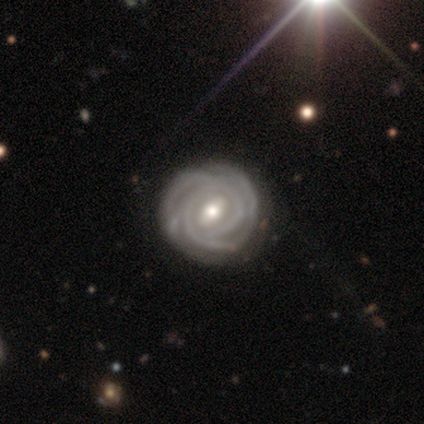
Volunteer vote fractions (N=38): featured or disk 87%, star or artifact 8%, smooth 5%. Down the decision tree: edge-on disk — no (97%); bar — weak (50%); spiral arms — yes (100%); spiral arm count — can't tell (31%); spiral winding — tight (94%); bulge size — moderate (72%); merging — none (69%).